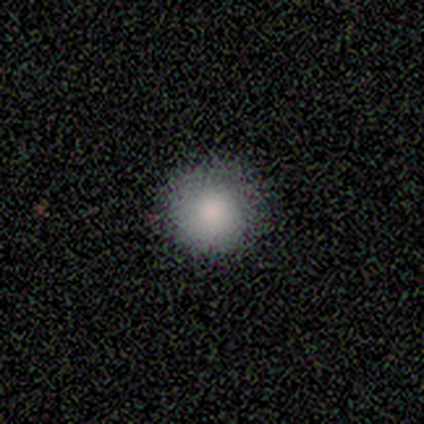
smooth-or-featured: smooth: 100% | featured or disk: 0% | star or artifact: 0%
  how-rounded: round: 100% | in between: 0% | cigar-shaped: 0%
  merging: none: 100% | minor disturbance: 0% | major disturbance: 0% | merger: 0%